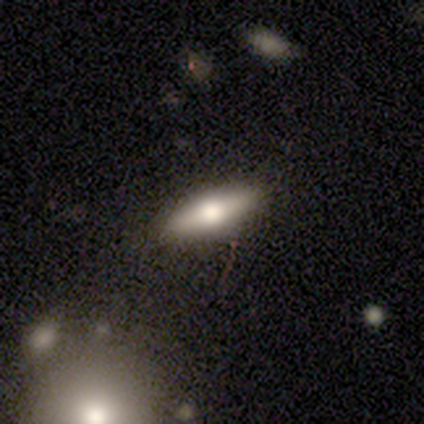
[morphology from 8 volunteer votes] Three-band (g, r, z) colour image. It shows a smooth galaxy with no disk features (75%) that is in between round and cigar-shaped (67%). Merging: none (100%).